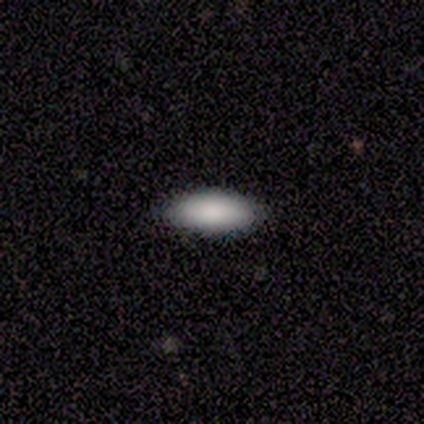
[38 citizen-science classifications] Q: Smooth or featured?
A: smooth (92%); runner-up: featured or disk (5%)
Q: How rounded?
A: in between (91%); runner-up: cigar-shaped (9%)
Q: Merging?
A: none (81%); runner-up: minor disturbance (14%)